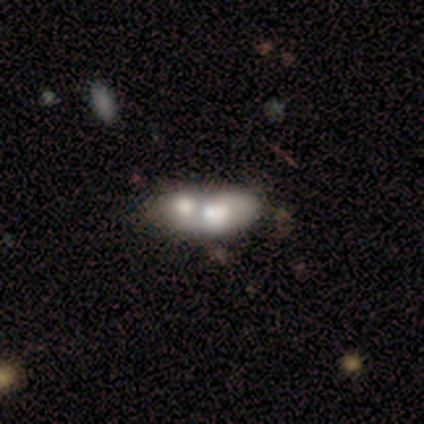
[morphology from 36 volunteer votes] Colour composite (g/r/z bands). It shows a smooth galaxy with no disk features (56%) that is in between round and cigar-shaped (85%). Merging: merger (90%).